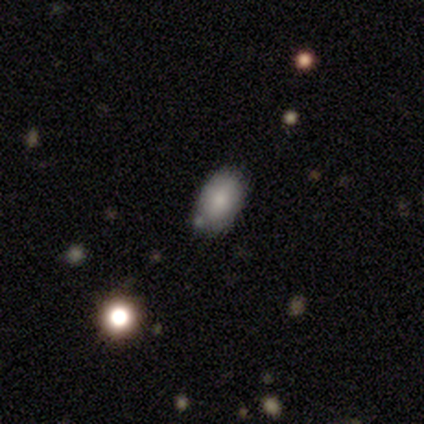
smooth 89%, star or artifact 11%, featured or disk 0%. Down the decision tree: how rounded — in between (100%); merging — none (62%).